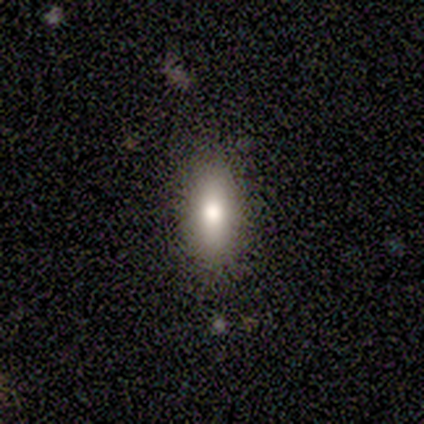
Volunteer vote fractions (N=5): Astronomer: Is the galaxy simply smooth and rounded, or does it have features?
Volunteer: smooth — 60%.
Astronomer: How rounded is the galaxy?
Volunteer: in between — 100%.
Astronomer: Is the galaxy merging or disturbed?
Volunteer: none — 75%.